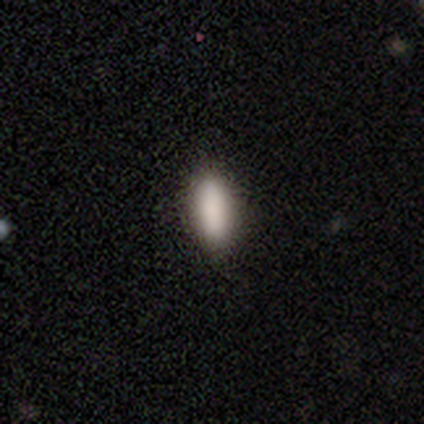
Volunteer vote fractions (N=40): This appears to be a smooth galaxy with no disk features (90%) that is in between round and cigar-shaped (69%). Merging: none (92%).